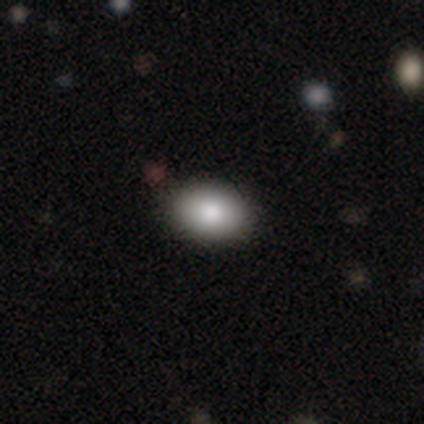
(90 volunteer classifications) Volunteers were most divided on "how rounded": in between: 81%, round: 17%, cigar-shaped: 1%. More confident: smooth or featured — smooth (83%); merging — none (83%).